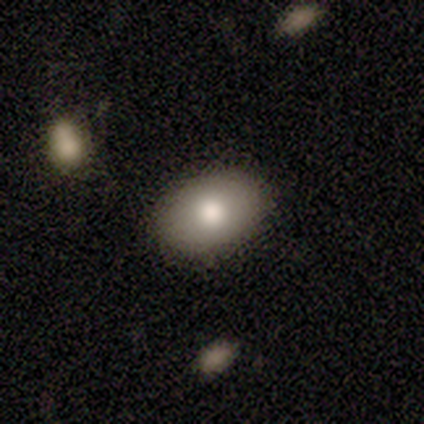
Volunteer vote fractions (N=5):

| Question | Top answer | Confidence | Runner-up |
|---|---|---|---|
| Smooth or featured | smooth | 80% | star or artifact (20%) |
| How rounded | in between | 100% | — |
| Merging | none | 75% | major disturbance (25%) |